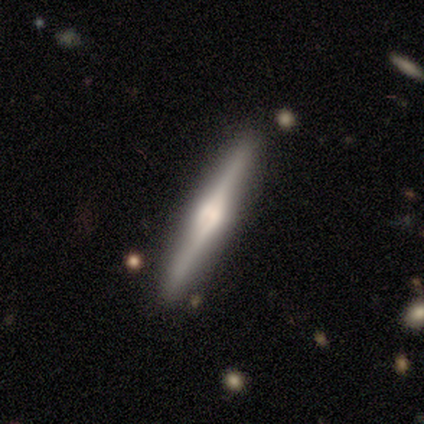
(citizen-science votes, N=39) Smooth or featured?
  - featured or disk: 79% *
  - smooth: 18%
  - star or artifact: 3%
Edge-on disk?
  - yes: 97% *
  - no: 3%
Edge-on bulge?
  - rounded: 87% *
  - boxy: 7%
  - none: 7%
Merging?
  - none: 76% *
  - minor disturbance: 18%
  - merger: 5%
  - major disturbance: 0%